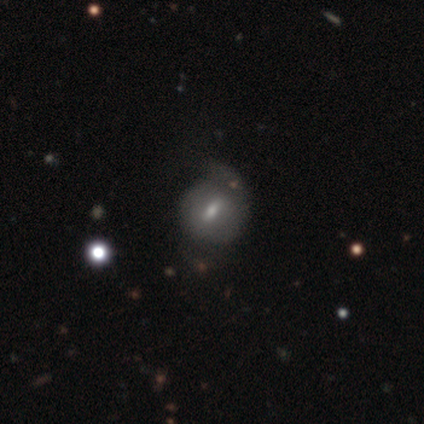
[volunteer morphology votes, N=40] type=featured or disk (65%); edge-on=no (100%); bar=weak (69%); spiral arms=yes (62%); winding=tight (50%); arm count=2 (50%); bulge=small (62%); merging=minor disturbance (31%).